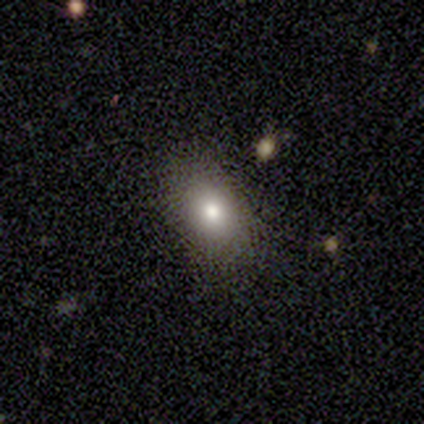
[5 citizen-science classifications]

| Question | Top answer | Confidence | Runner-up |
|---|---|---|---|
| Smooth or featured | smooth | 100% | — |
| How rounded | in between | 100% | — |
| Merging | none | 100% | — |